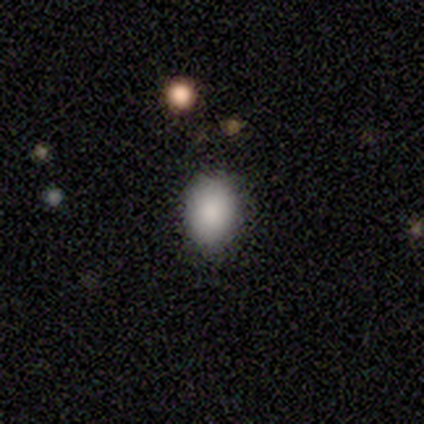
Overall: smooth (80%). How rounded: in between (100%). Merging: none (75%).